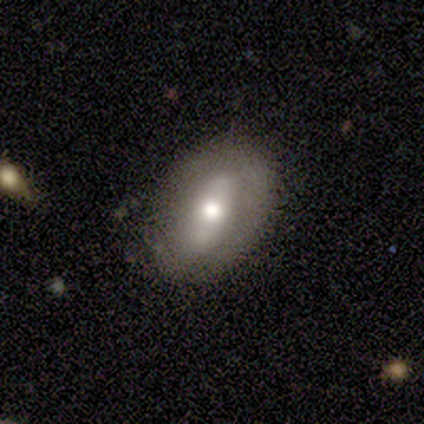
Smooth or featured?
  - smooth: 50% * (tied)
  - featured or disk: 50% * (tied)
  - star or artifact: 0%
How rounded?
  - in between: 100% *
  - round: 0%
  - cigar-shaped: 0%
Merging?
  - none: 75% *
  - minor disturbance: 25%
  - major disturbance: 0%
  - merger: 0%